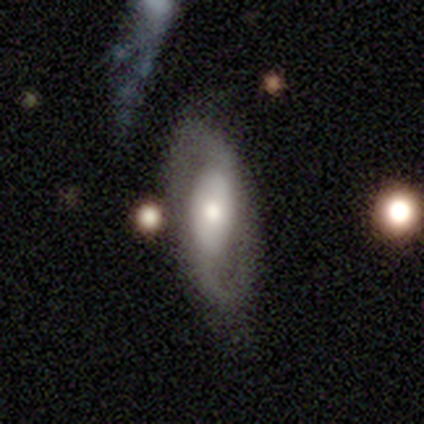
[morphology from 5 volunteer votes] Q: Smooth or featured?
A: featured or disk (100%)
Q: Edge-on disk?
A: no (100%)
Q: Bar?
A: weak (60%); runner-up: no (40%)
Q: Spiral arms?
A: yes (60%); runner-up: no (40%)
Q: Spiral winding?
A: loose (67%); runner-up: medium (33%)
Q: Spiral arm count?
A: 2 (100%)
Q: Bulge size?
A: moderate (80%); runner-up: large (20%)
Q: Merging?
A: none (80%); runner-up: minor disturbance (20%)